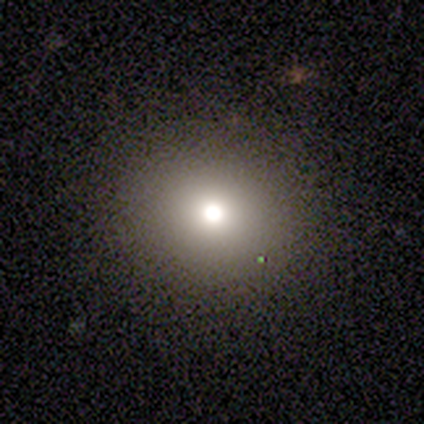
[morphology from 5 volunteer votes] A star or artifact, not a galaxy (60%).